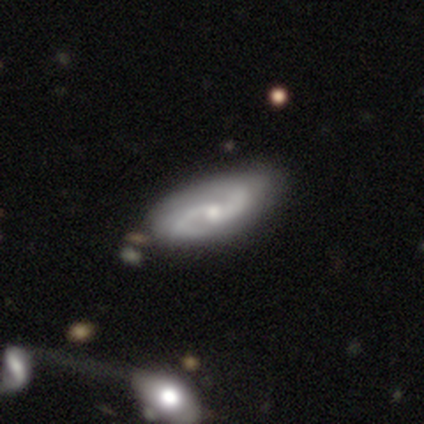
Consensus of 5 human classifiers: Smooth or featured? 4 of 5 (80%) said featured or disk. Edge-on disk? 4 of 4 (100%) said no. Bar? 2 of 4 (50%, tied with no) said weak. Spiral arms? 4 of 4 (100%) said yes. Spiral winding? 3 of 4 (75%) said medium. Spiral arm count? 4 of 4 (100%) said 2. Bulge size? 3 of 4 (75%) said moderate. Merging? 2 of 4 (50%) said none.